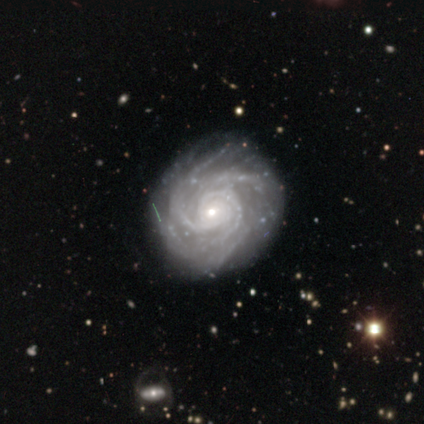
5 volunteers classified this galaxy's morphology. Q: Smooth or featured?
A: featured or disk (80%); runner-up: star or artifact (20%)
Q: Edge-on disk?
A: no (100%)
Q: Bar?
A: no (100%)
Q: Spiral arms?
A: yes (100%)
Q: Spiral winding?
A: tight (75%); runner-up: medium (25%)
Q: Spiral arm count?
A: 4 (50%); runner-up: 2 (25%)
Q: Bulge size?
A: small (100%)
Q: Merging?
A: none (50%); tied with: minor disturbance (50%)